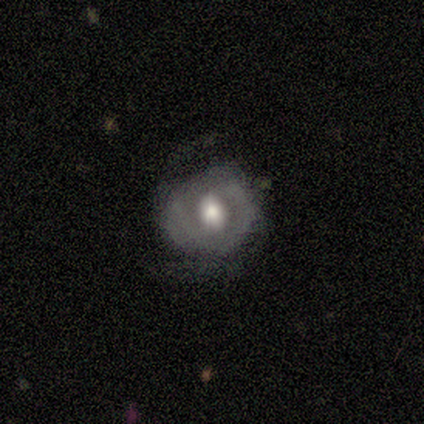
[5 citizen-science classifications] smooth_or_featured: featured or disk (p=0.60) [alt: smooth p=0.20]
disk_edge_on: no (p=1.00)
bar: no (p=0.67) [alt: weak p=0.33]
has_spiral_arms: yes (p=0.67) [alt: no p=0.33]
spiral_winding: tight (p=0.50) [tied with: medium p=0.50]
spiral_arm_count: 2 (p=0.50) [tied with: can't tell p=0.50]
bulge_size: moderate (p=1.00)
merging: none (p=0.50) [tied with: major disturbance p=0.50]